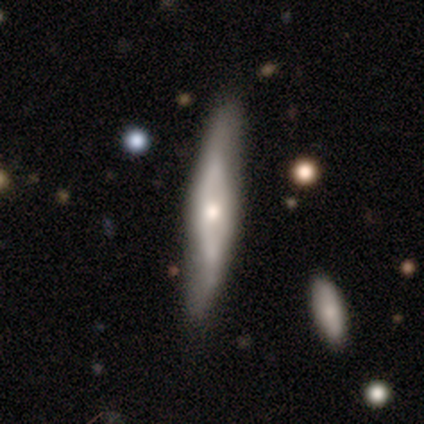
Volunteers were most divided on "edge-on disk": yes: 53%, no: 47%. More confident: edge-on bulge — rounded (88%); smooth or featured — featured or disk (77%); merging — none (68%).